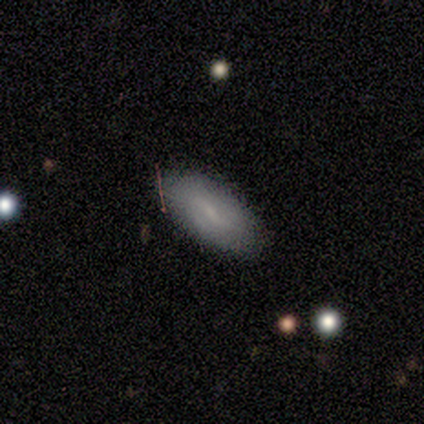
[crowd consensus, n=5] Smooth or featured: smooth — 60% (featured or disk — 40%)
How rounded: in between — 100%
Merging: none — 100%